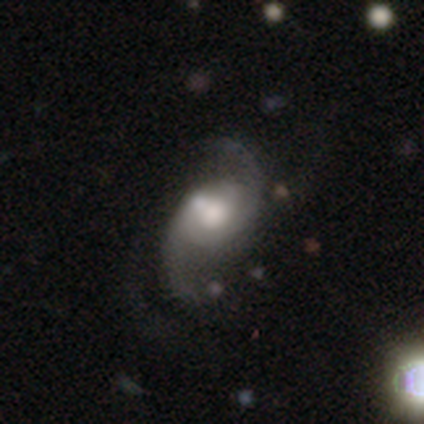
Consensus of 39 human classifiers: Morphology: type=featured or disk (90%); edge-on=no (97%); bar=no (68%); spiral arms=yes (97%); winding=loose (70%); arm count=2 (97%); bulge=moderate (74%); merging=none (47%).